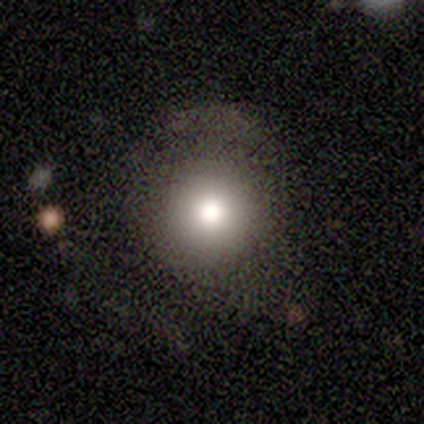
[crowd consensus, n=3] smooth-or-featured: smooth: 67% | featured or disk: 33% | star or artifact: 0%
  how-rounded: round: 100% | in between: 0% | cigar-shaped: 0%
  merging: none: 100% | minor disturbance: 0% | major disturbance: 0% | merger: 0%